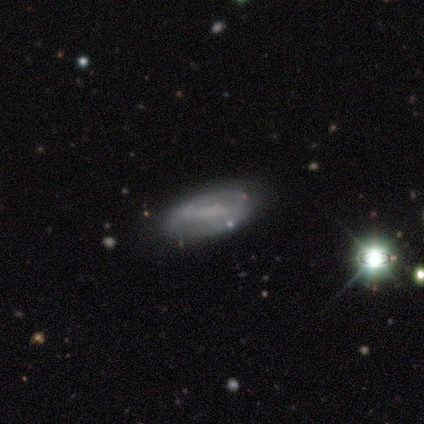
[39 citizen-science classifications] Smooth or featured: smooth — 46% (featured or disk — 38%)
How rounded: in between — 100%
Merging: none — 82% (minor disturbance — 15%)